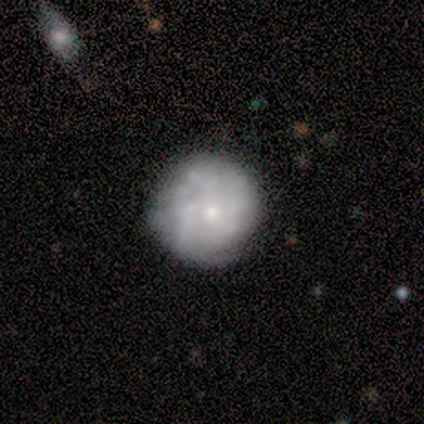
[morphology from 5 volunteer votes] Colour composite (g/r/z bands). It shows a featured or disk galaxy (100%) with no bar (100%), 3 (60%) tight (100%) spiral arms (100%) and a small central bulge (100%). Merging: none (100%).